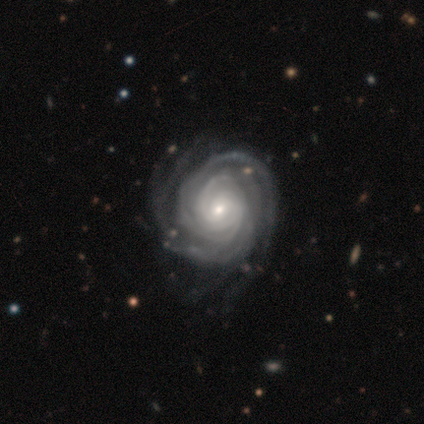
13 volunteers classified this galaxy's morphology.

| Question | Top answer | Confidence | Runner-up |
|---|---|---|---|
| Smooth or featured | featured or disk | 100% | — |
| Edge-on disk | no | 100% | — |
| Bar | no | 85% | weak (15%) |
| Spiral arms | yes | 100% | — |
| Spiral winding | tight | 100% | — |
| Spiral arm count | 4 | 38% | can't tell (23%) |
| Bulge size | small | 69% | moderate (23%) |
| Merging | none | 85% | minor disturbance (15%) |